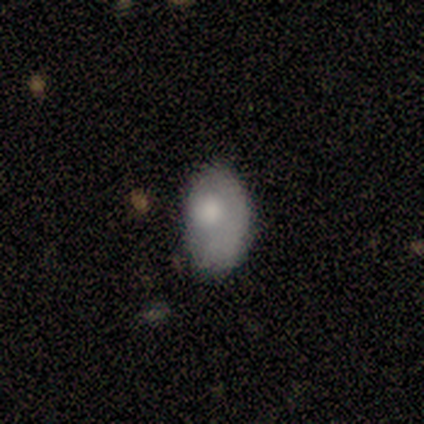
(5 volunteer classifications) This appears to be a smooth galaxy with no disk features (100%) that is in between round and cigar-shaped (100%). Merging: none (40%, tied with minor disturbance).